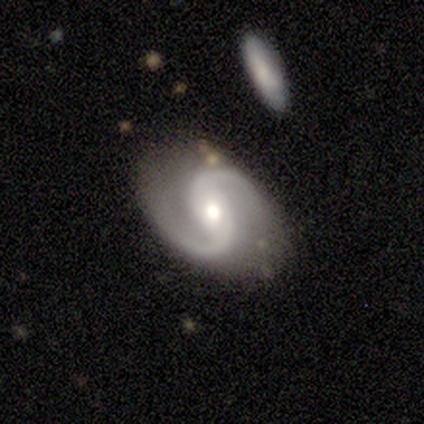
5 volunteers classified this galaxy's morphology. This appears to be a featured or disk galaxy (80%) with a weak bar (75%), 2 (100%) loose (100%) spiral arms (100%) and a moderate central bulge (75%). Merging: none (80%).